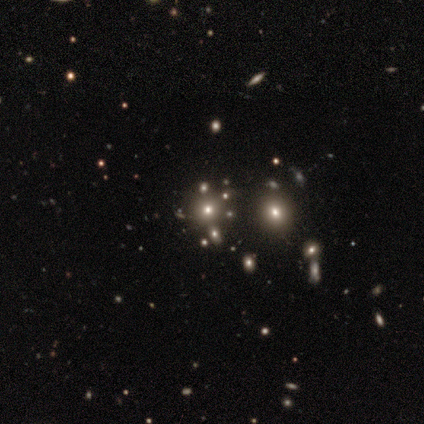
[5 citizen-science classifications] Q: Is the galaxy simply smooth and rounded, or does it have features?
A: star or artifact — 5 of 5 (100%).